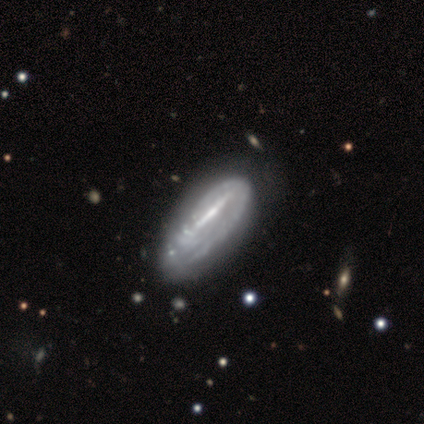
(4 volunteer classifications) A smooth galaxy with no disk features (50%, tied with featured or disk) that is in between round and cigar-shaped (50%, tied with cigar-shaped). Merging: merger (50%).